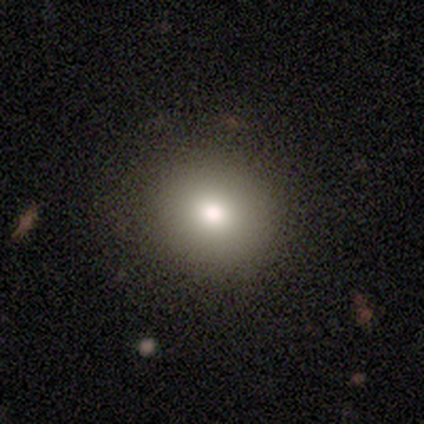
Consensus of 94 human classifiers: This appears to be a smooth galaxy with no disk features (79%) that is round (86%). Merging: none (93%).